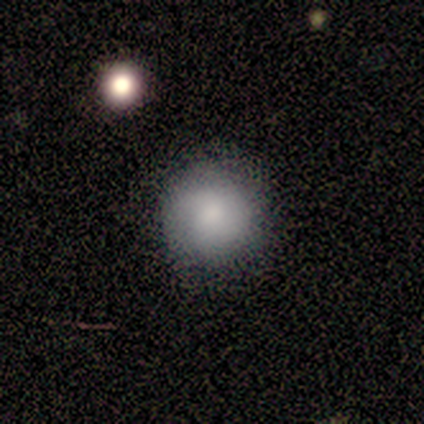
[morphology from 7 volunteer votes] This is clearly a smooth galaxy (100%). How rounded: clearly round (100%). Merging: likely none (71%).